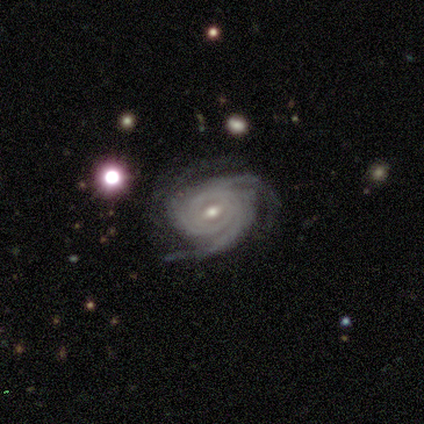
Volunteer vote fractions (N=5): smooth-or-featured: featured or disk: 100% | smooth: 0% | star or artifact: 0%
  disk-edge-on: no: 100% | yes: 0%
    bar: weak: 80% | strong: 20% | no: 0%
    has-spiral-arms: yes: 100% | no: 0%
      spiral-winding: tight: 60% | medium: 20% | loose: 20%
      spiral-arm-count: 3: 60% | 2: 20% | can't tell: 20% | 1: 0% | 4: 0% | more than 4: 0%
    bulge-size: small: 80% | moderate: 20% | dominant: 0% | large: 0% | none: 0%
  merging: none: 80% | minor disturbance: 20% | major disturbance: 0% | merger: 0%